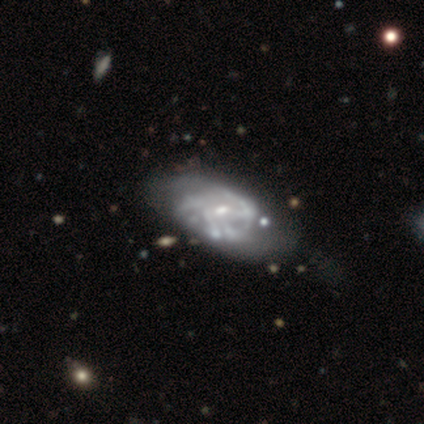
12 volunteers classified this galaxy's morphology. Smooth or featured? 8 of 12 (67%) said featured or disk. Edge-on disk? 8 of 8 (100%) said no. Bar? 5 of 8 (62%) said weak. Spiral arms? 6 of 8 (75%) said yes. Spiral winding? 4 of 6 (67%) said medium. Spiral arm count? 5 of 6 (83%) said can't tell. Bulge size? 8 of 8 (100%) said small. Merging? 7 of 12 (58%) said none.